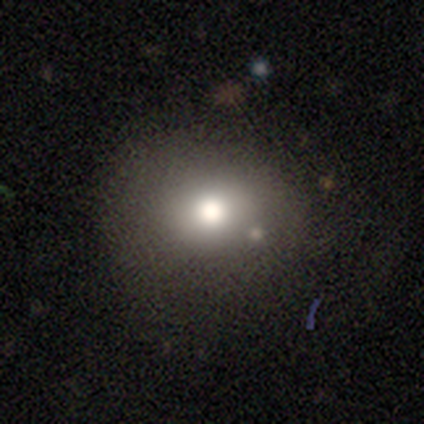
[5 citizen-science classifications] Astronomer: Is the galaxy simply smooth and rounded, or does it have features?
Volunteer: featured or disk — 60% (runner-up: smooth, 40%).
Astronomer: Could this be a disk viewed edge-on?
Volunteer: no — 100%.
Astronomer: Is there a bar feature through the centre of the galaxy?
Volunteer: no — 100%.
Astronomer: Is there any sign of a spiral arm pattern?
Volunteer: no — 100%.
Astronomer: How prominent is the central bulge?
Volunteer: moderate — 67%.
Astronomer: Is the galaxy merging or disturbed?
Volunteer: none — 60% (runner-up: minor disturbance, 40%).